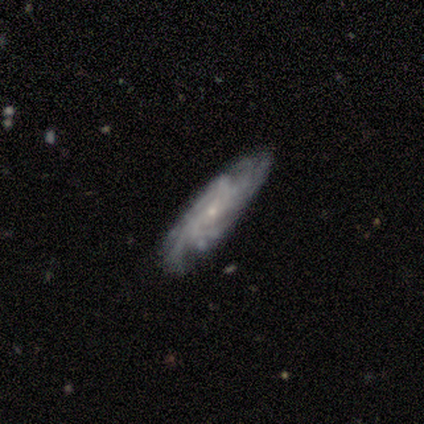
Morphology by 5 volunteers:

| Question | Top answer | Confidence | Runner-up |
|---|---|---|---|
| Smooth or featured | featured or disk | 100% | — |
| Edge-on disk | no | 80% | yes (20%) |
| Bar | no | 100% | — |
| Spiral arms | yes | 100% | — |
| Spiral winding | tight | 50% | tied: medium (50%) |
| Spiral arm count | more than 4 | 75% | can't tell (25%) |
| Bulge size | small | 100% | — |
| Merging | none | 100% | — |